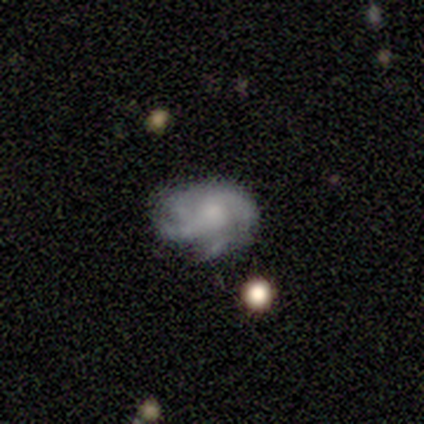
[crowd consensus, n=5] Morphology: type=featured or disk (80%); edge-on=no (100%); bar=no (100%); spiral arms=yes (100%); winding=medium (50%); arm count=2 (50%); bulge=small (75%); merging=none (60%).